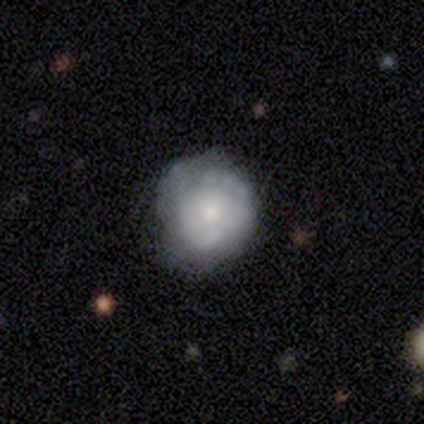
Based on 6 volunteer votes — A smooth galaxy with no disk features (67%) that is round (100%). Merging: minor disturbance (60%).